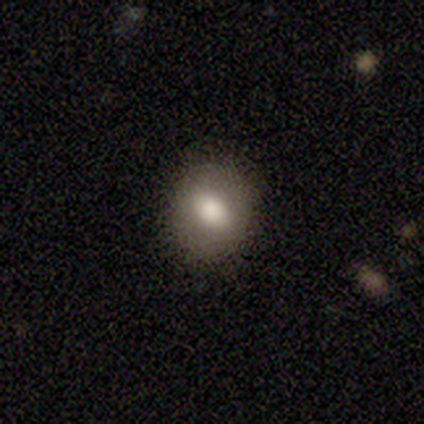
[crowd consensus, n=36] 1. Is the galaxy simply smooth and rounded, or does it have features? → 61% smooth, 22% featured or disk, 17% star or artifact.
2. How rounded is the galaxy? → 68% round, 27% in between, 5% cigar-shaped.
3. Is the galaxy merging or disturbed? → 97% none, 3% minor disturbance, 0% major disturbance, 0% merger.